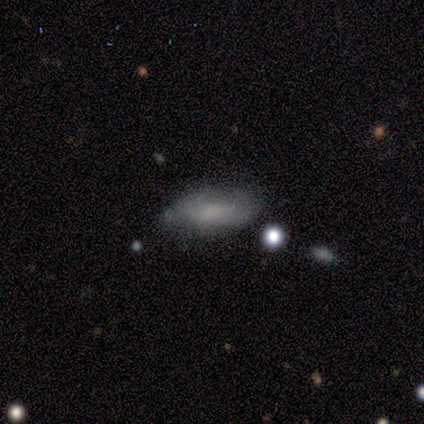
A smooth galaxy with no disk features (50%) that is in between round and cigar-shaped (100%). Merging: minor disturbance (80%).